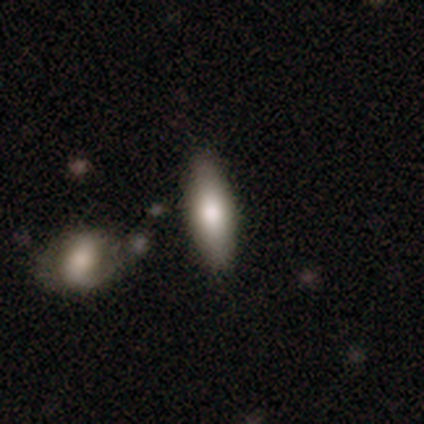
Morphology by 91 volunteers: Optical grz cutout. It shows a smooth galaxy with no disk features (74%) that is cigar-shaped (55%). Merging: none (81%).